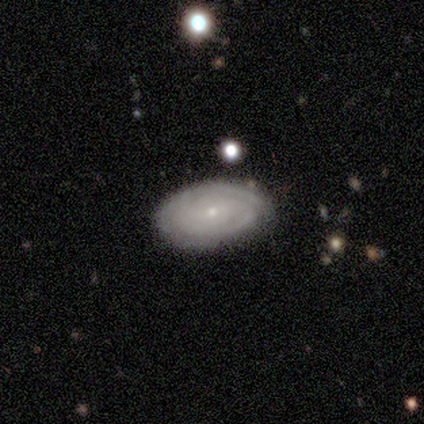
A featured or disk galaxy (100%) viewed edge-on (50%, tied with no) with a boxy central bulge (50%, tied with rounded).

Vote fractions:
- Smooth or featured? featured or disk: 100% / smooth: 0% / star or artifact: 0%
- Edge-on disk? yes: 50% (tied) / no: 50% (tied)
- Edge-on bulge? boxy: 50% (tied) / rounded: 50% (tied) / none: 0%
- Merging? none: 75% / merger: 25% / minor disturbance: 0% / major disturbance: 0%